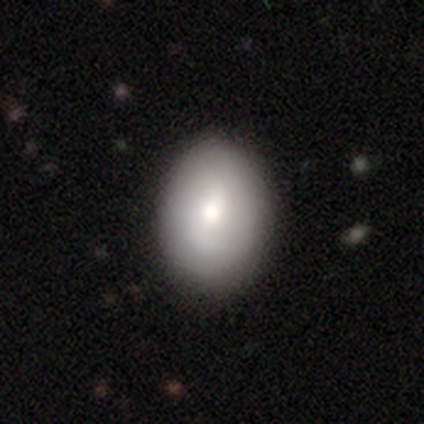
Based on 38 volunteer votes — smooth-or-featured: smooth: 71% | featured or disk: 26% | star or artifact: 3%
  how-rounded: in between: 70% | round: 30% | cigar-shaped: 0%
  merging: none: 76% | minor disturbance: 16% | major disturbance: 8% | merger: 0%